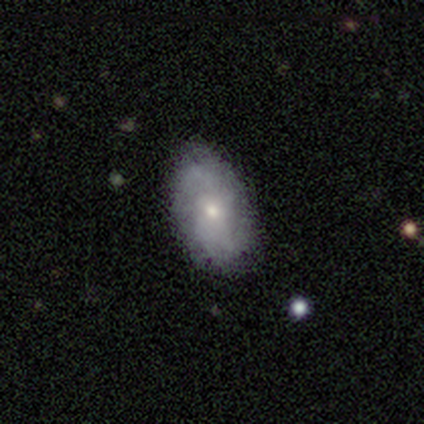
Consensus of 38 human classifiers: This appears to be a featured or disk galaxy (58%) with no bar (86%), medium (36%, tied with loose) spiral arms (64%) and a small central bulge (50%). Merging: none (81%).